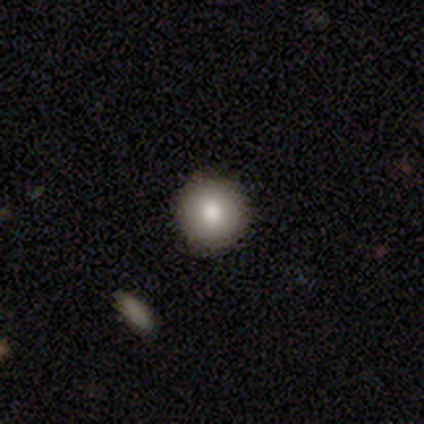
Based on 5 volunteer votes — smooth-or-featured: smooth: 80% | star or artifact: 20% | featured or disk: 0%
  how-rounded: round: 100% | in between: 0% | cigar-shaped: 0%
  merging: none: 100% | minor disturbance: 0% | major disturbance: 0% | merger: 0%